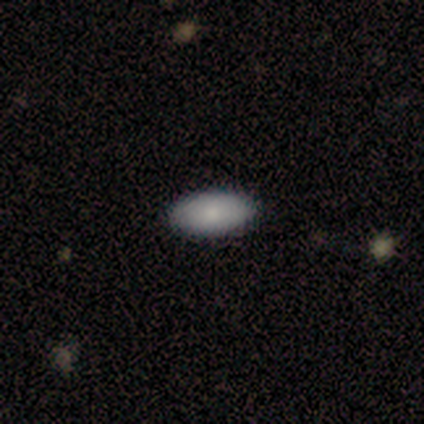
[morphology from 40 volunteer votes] Smooth or featured? 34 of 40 (85%) said smooth. How rounded? 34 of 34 (100%) said in between. Merging? 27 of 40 (68%) said none.